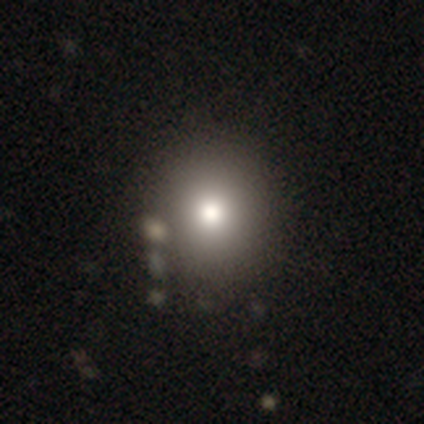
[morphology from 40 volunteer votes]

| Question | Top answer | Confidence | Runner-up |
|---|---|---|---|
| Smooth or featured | smooth | 80% | star or artifact (15%) |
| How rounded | round | 81% | in between (19%) |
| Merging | none | 59% | merger (12%) |